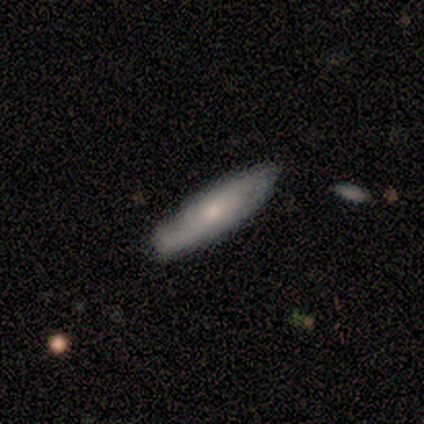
featured or disk 60%, smooth 40%, star or artifact 0%. Down the decision tree: edge-on disk — no (67%); bar — weak (50%, tied with no); spiral arms — yes (100%); spiral arm count — 2 (50%, tied with can't tell); spiral winding — medium (50%, tied with loose); bulge size — small (100%); merging — none (100%).